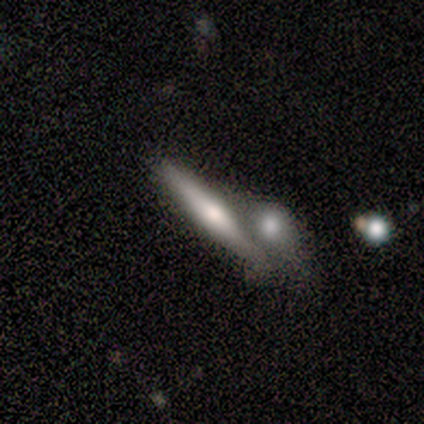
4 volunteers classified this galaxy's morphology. A smooth galaxy with no disk features (50%) that is cigar-shaped (100%).

Vote fractions:
- Smooth or featured? smooth: 50% / featured or disk: 25% / star or artifact: 25%
- How rounded? cigar-shaped: 100% / round: 0% / in between: 0%
- Merging? none: 67% / merger: 33% / minor disturbance: 0% / major disturbance: 0%